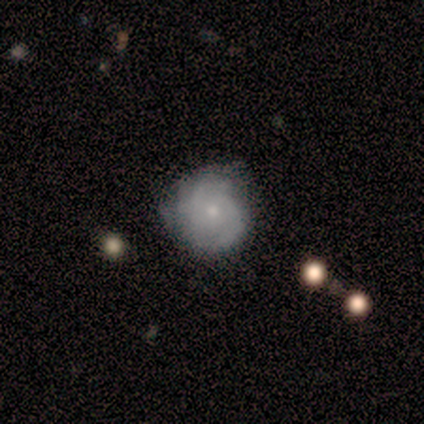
featured or disk 80%, smooth 20%, star or artifact 0%. Down the decision tree: edge-on disk — no (100%); bar — no (75%); spiral arms — yes (100%); spiral arm count — 2 (50%); spiral winding — medium (75%); bulge size — moderate (50%, tied with small); merging — none (60%).